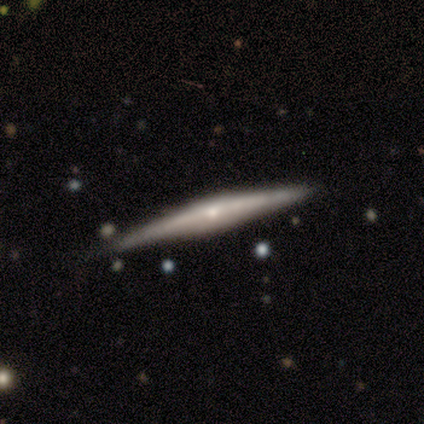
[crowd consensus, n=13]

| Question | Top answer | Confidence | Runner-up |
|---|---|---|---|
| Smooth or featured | featured or disk | 62% | smooth (38%) |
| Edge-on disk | yes | 88% | no (12%) |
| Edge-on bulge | rounded | 43% | boxy (29%) |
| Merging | none | 92% | minor disturbance (8%) |